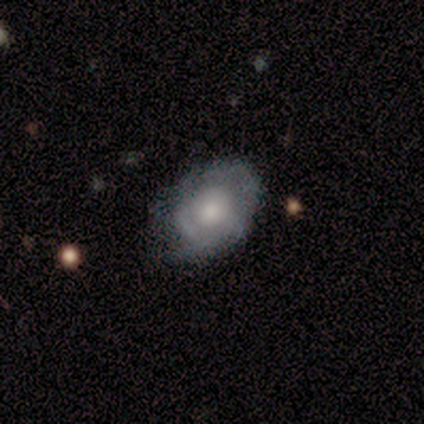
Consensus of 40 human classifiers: Overall: featured or disk (62%; smooth 32%). Edge-on disk: no (100%). Bar: no (96%). Spiral arms: yes (60%; no 40%). Spiral arm count: can't tell (73%). Spiral winding: tight (67%). Bulge size: moderate (44%; small 32%). Merging: none (68%).